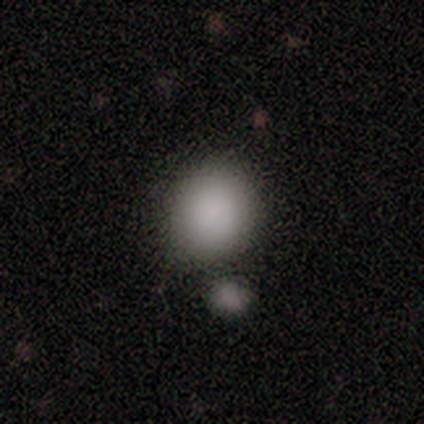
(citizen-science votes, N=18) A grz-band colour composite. It shows a smooth galaxy with no disk features (94%) that is round (82%). Merging: none (67%).